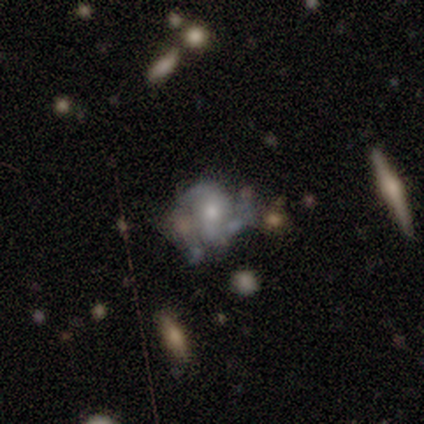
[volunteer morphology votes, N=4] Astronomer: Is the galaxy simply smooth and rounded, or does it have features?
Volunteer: featured or disk — 75%.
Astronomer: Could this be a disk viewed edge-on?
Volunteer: no — 100%.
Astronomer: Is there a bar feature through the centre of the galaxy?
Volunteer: no — 100%.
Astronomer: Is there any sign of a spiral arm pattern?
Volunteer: no — 100%.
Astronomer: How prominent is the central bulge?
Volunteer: moderate — 100%.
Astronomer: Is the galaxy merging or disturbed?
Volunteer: none — 50%.